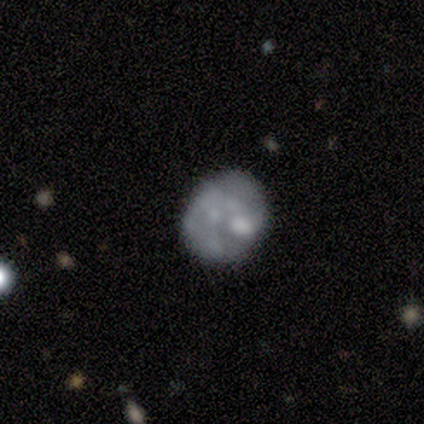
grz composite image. It shows a featured or disk galaxy (86%) with no bar (100%), no spiral arms (83%) and no central bulge (50%). Merging: none (57%).